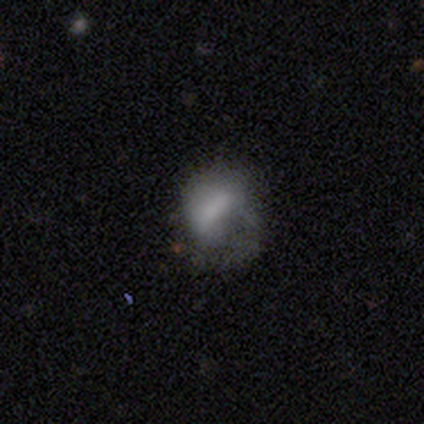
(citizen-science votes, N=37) Q: Smooth or featured?
A: smooth (49%); runner-up: featured or disk (35%)
Q: How rounded?
A: in between (78%); runner-up: round (22%)
Q: Merging?
A: major disturbance (52%); runner-up: none (26%)